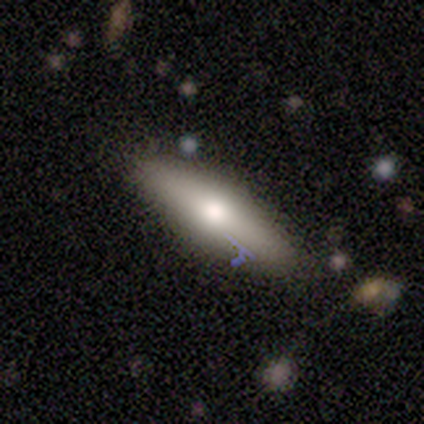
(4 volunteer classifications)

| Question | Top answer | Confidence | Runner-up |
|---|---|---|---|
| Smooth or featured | smooth | 50% | featured or disk (25%) |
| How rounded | in between | 50% | tied: cigar-shaped (50%) |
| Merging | none | 100% | — |